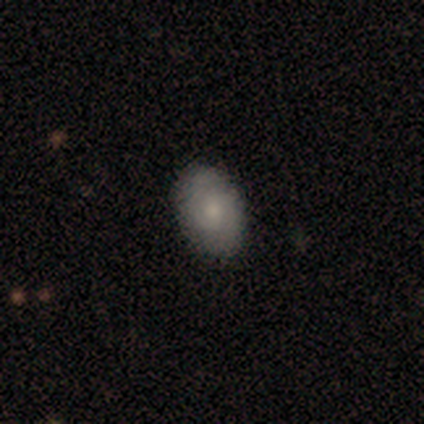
A featured or disk galaxy (60%) with no bar (100%), 2 (100%) tight (50%, tied with medium) spiral arms (67%) and a dominant central bulge (33%, tied with moderate and small).

Vote fractions:
- Smooth or featured? featured or disk: 60% / smooth: 40% / star or artifact: 0%
- Edge-on disk? no: 100% / yes: 0%
- Bar? no: 100% / strong: 0% / weak: 0%
- Spiral arms? yes: 67% / no: 33%
- Spiral winding? tight: 50% (tied) / medium: 50% (tied) / loose: 0%
- Spiral arm count? 2: 100% / 1: 0% / 3: 0% / 4: 0% / more than 4: 0% / can't tell: 0%
- Bulge size? dominant: 33% (tied) / moderate: 33% (tied) / small: 33% (tied) / large: 0% / none: 0%
- Merging? none: 100% / minor disturbance: 0% / major disturbance: 0% / merger: 0%